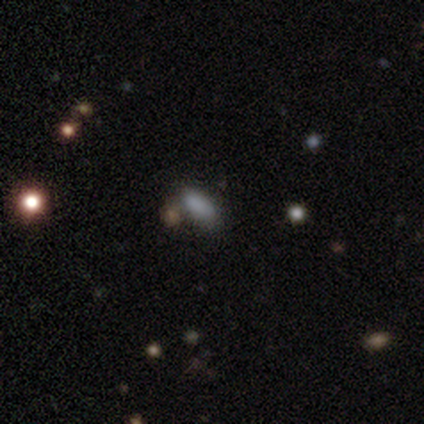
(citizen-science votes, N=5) Overall: smooth (100%). How rounded: in between (80%). Merging: none (40%, tied with merger).